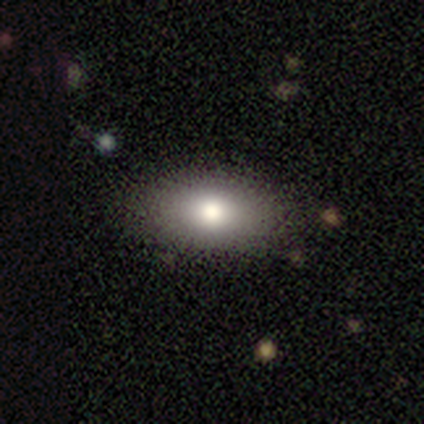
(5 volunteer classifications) Volunteers were most divided on "merging": none: 80%, major disturbance: 20%, minor disturbance: 0%, merger: 0%. More confident: smooth or featured — smooth (100%); how rounded — in between (100%).